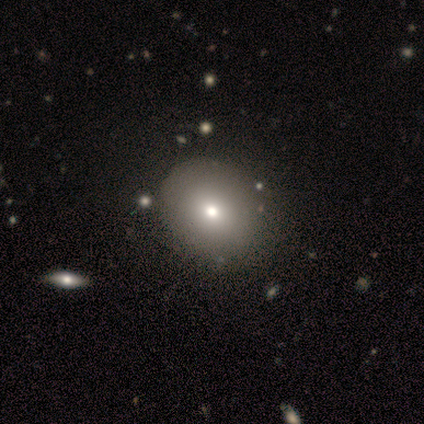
Overall: smooth (50%, tied with star or artifact). How rounded: round (50%, tied with in between). Merging: none (100%).